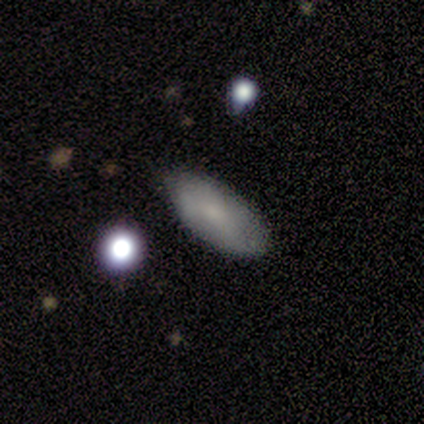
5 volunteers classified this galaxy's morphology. Q: Smooth or featured?
A: smooth (80%); runner-up: featured or disk (20%)
Q: How rounded?
A: in between (100%)
Q: Merging?
A: none (80%); runner-up: minor disturbance (20%)